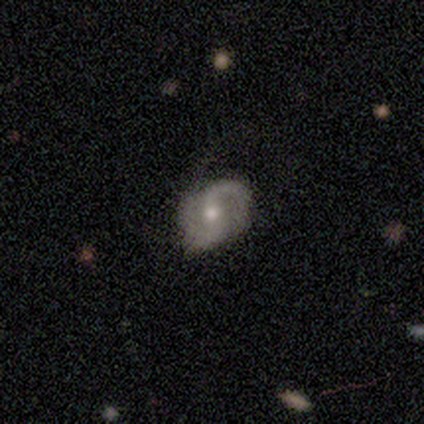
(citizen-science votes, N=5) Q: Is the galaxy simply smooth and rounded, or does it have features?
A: featured or disk — 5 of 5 (100%).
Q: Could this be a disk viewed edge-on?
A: no — 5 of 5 (100%).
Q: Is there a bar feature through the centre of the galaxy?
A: weak — 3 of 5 (60%).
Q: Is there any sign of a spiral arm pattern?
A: yes — 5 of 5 (100%).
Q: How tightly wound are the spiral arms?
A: medium — 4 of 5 (80%).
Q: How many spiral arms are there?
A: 2 — 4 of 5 (80%).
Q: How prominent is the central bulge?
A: moderate — 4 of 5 (80%).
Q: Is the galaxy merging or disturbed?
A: none — 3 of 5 (60%).